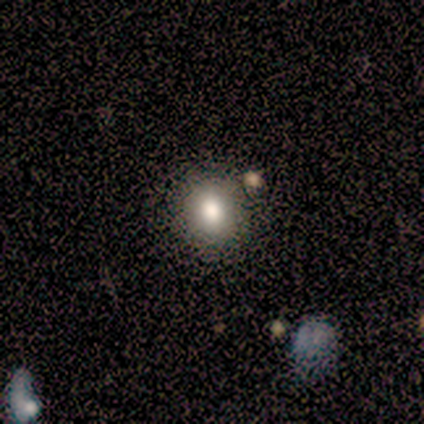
smooth_or_featured: smooth (p=0.80) [alt: star or artifact p=0.20]
how_rounded: round (p=1.00)
merging: none (p=0.75) [alt: merger p=0.25]